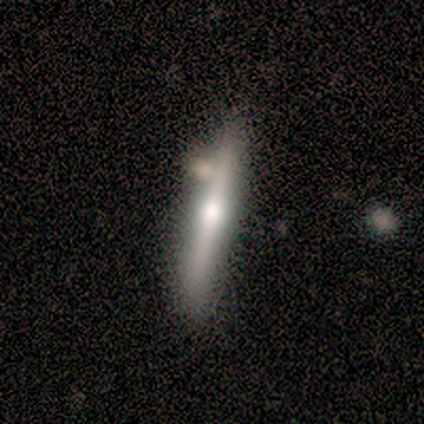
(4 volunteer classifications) Morphology: type=featured or disk (75%); edge-on=yes (100%); edge-on bulge=rounded (100%); merging=none (75%).